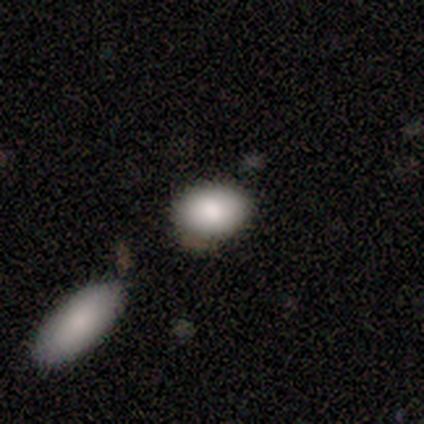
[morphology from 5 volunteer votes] Q: Smooth or featured?
A: smooth (80%); runner-up: featured or disk (20%)
Q: How rounded?
A: in between (75%); runner-up: round (25%)
Q: Merging?
A: none (100%)